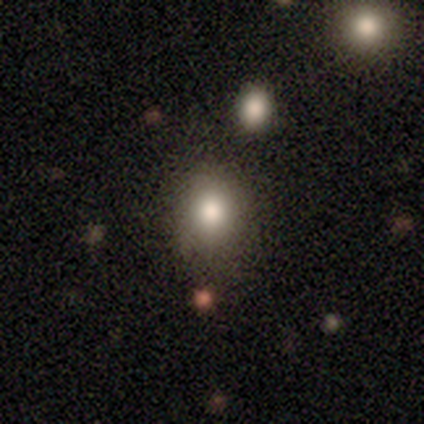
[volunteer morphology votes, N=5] Volunteers were most divided on "how rounded": round: 75%, in between: 25%, cigar-shaped: 0%. More confident: merging — none (100%); smooth or featured — smooth (80%).